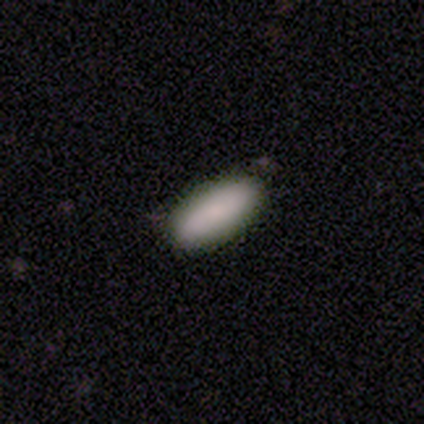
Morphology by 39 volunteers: smooth_or_featured: smooth (p=0.82) [alt: featured or disk p=0.10]
how_rounded: in between (p=0.81) [alt: cigar-shaped p=0.19]
merging: none (p=0.83) [alt: minor disturbance p=0.17]